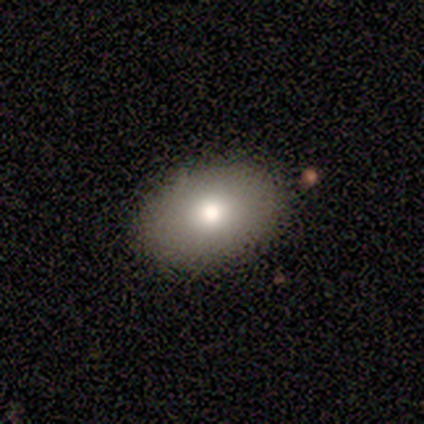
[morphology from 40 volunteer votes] A smooth galaxy with no disk features (78%) that is in between round and cigar-shaped (94%). Merging: none (68%).